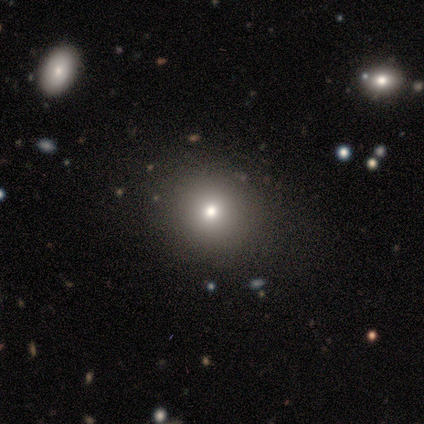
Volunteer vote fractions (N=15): This appears to be a smooth galaxy with no disk features (67%) that is round (80%). Merging: none (100%).